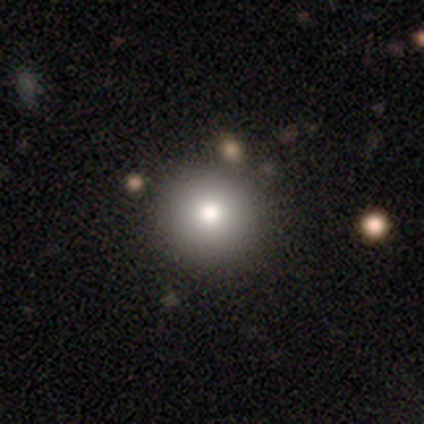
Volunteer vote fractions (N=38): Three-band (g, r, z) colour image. It shows a smooth galaxy with no disk features (79%) that is round (100%). Merging: none (81%).